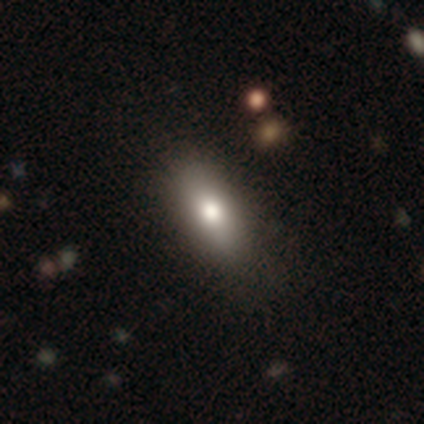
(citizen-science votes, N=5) Smooth or featured: smooth — 60% (featured or disk — 20%)
How rounded: in between — 67% (cigar-shaped — 33%)
Merging: none — 100%